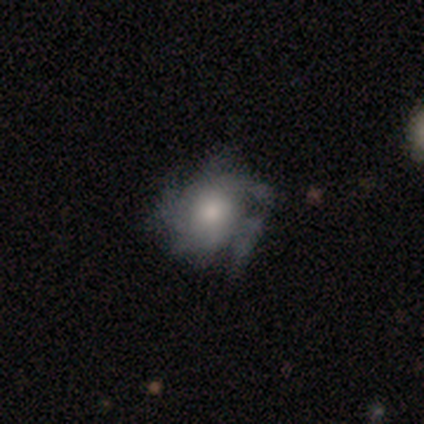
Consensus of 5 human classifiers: Volunteers were most divided on "bulge size" (2-way tie): moderate: 50%, small: 50%, dominant: 0%, large: 0%, none: 0%. More confident: edge-on disk — no (100%); bar — no (100%); smooth or featured — featured or disk (80%); merging — none (80%); spiral arms — yes (75%); spiral winding — medium (67%); spiral arm count — can't tell (67%).